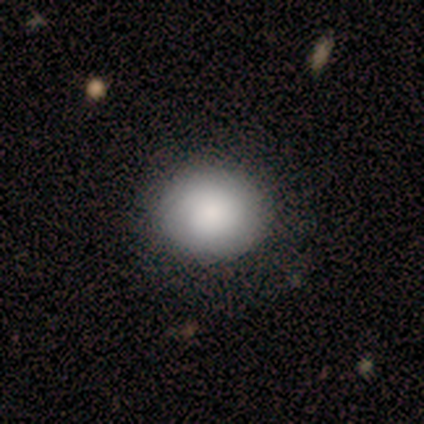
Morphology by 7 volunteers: smooth_or_featured: smooth (p=0.71) [alt: featured or disk p=0.29]
how_rounded: round (p=0.80) [alt: in between p=0.20]
merging: none (p=1.00)